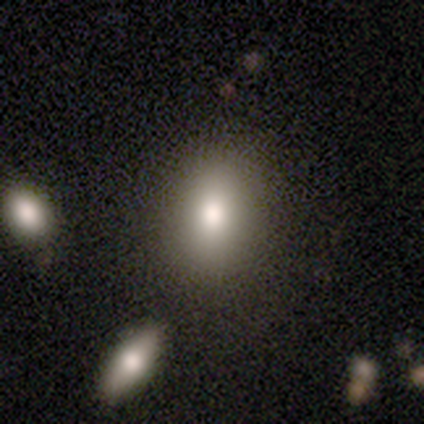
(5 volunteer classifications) Q: Smooth or featured?
A: smooth (60%); runner-up: star or artifact (40%)
Q: How rounded?
A: in between (100%)
Q: Merging?
A: none (67%); runner-up: major disturbance (33%)